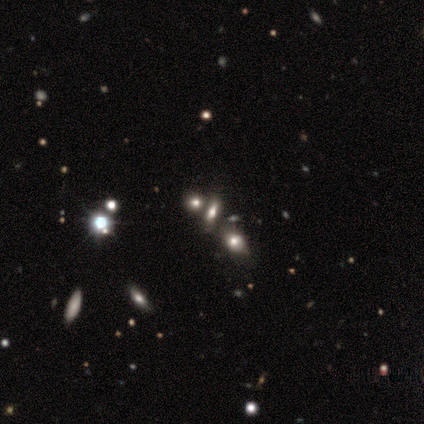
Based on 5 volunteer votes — A smooth galaxy with no disk features (40%, tied with star or artifact) that is in between round and cigar-shaped (100%).

Vote fractions:
- Smooth or featured? smooth: 40% (tied) / star or artifact: 40% (tied) / featured or disk: 20%
- How rounded? in between: 100% / round: 0% / cigar-shaped: 0%
- Merging? none: 100% / minor disturbance: 0% / major disturbance: 0% / merger: 0%